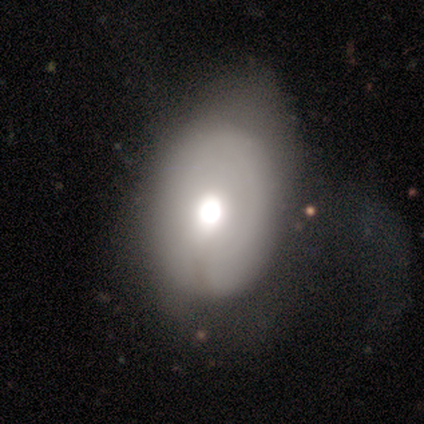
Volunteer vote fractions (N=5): A featured or disk galaxy (80%) with no bar (100%), no spiral arms (100%) and a large central bulge (100%). Merging: none (40%, tied with minor disturbance).